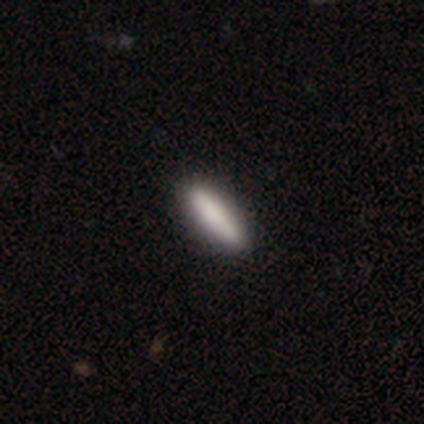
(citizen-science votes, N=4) Volunteers were most divided on "how rounded": cigar-shaped: 75%, in between: 25%, round: 0%. More confident: smooth or featured — smooth (100%); merging — none (100%).